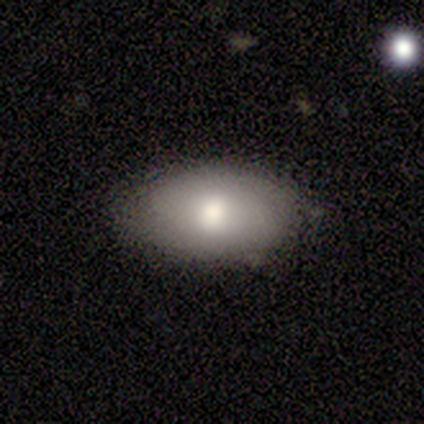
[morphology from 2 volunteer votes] Smooth or featured?
  - smooth: 50% * (tied)
  - featured or disk: 50% * (tied)
  - star or artifact: 0%
How rounded?
  - in between: 100% *
  - round: 0%
  - cigar-shaped: 0%
Merging?
  - none: 50% * (tied)
  - major disturbance: 50% * (tied)
  - minor disturbance: 0%
  - merger: 0%